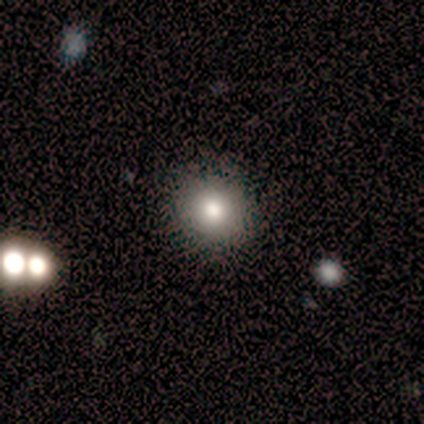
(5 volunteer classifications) A smooth galaxy with no disk features (80%) that is round (100%).

Vote fractions:
- Smooth or featured? smooth: 80% / featured or disk: 20% / star or artifact: 0%
- How rounded? round: 100% / in between: 0% / cigar-shaped: 0%
- Merging? none: 100% / minor disturbance: 0% / major disturbance: 0% / merger: 0%